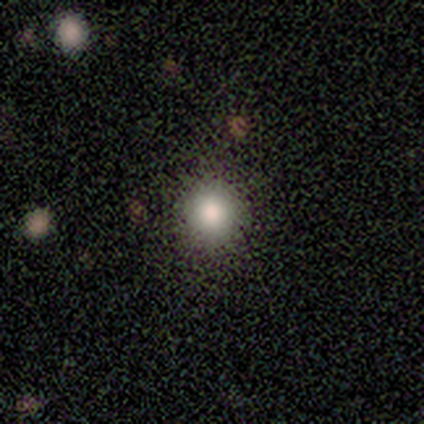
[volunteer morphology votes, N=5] Smooth or featured? smooth (80%)
How rounded? round (100%)
Merging? none (100%)